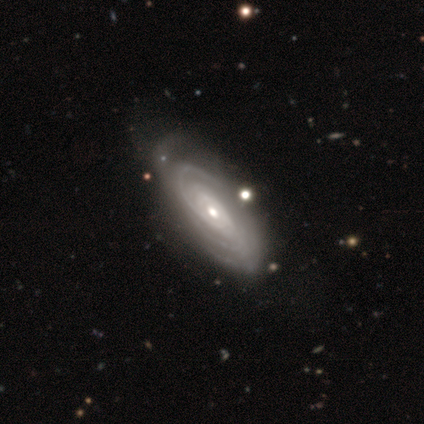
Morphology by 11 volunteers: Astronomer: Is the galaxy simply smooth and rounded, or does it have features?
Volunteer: featured or disk — 100%.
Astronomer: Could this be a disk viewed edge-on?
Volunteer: no — 100%.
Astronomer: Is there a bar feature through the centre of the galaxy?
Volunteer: no — 73%.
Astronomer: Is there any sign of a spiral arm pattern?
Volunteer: yes — 100%.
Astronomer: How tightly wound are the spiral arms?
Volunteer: tight — 73%.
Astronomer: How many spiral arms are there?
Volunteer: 4 — 36%, tied with can't tell at 36%.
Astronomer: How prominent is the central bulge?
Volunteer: moderate — 55% (runner-up: small, 36%).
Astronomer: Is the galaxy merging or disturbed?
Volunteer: none — 73%.